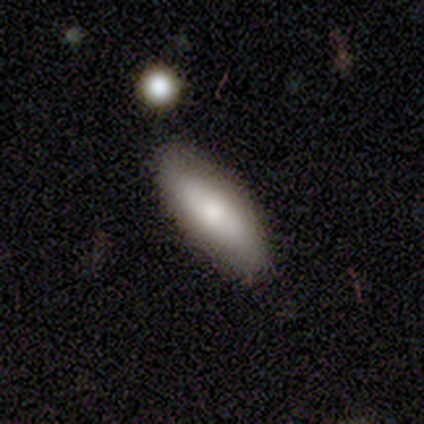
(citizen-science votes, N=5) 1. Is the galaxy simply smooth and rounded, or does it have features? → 80% smooth, 20% star or artifact, 0% featured or disk.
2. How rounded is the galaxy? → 50% in between (tied), 50% cigar-shaped (tied), 0% round.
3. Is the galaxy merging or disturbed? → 75% none, 25% minor disturbance, 0% major disturbance, 0% merger.